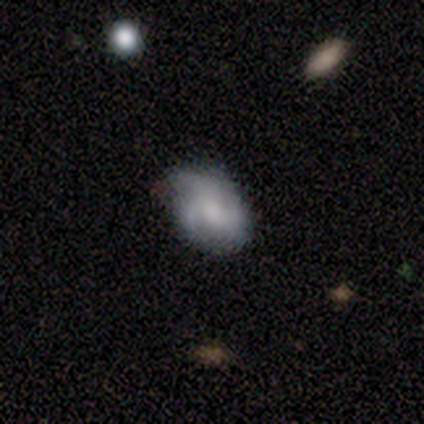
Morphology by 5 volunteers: smooth-or-featured: featured or disk: 80% | smooth: 20% | star or artifact: 0%
  disk-edge-on: no: 75% | yes: 25%
    bar: no: 100% | strong: 0% | weak: 0%
    has-spiral-arms: yes: 67% | no: 33%
      spiral-winding: tight: 50% (tied) | loose: 50% (tied) | medium: 0%
      spiral-arm-count: 3: 100% | 1: 0% | 2: 0% | 4: 0% | more than 4: 0% | can't tell: 0%
    bulge-size: none: 67% | small: 33% | dominant: 0% | large: 0% | moderate: 0%
  merging: none: 40% (tied) | minor disturbance: 40% (tied) | major disturbance: 20% | merger: 0%